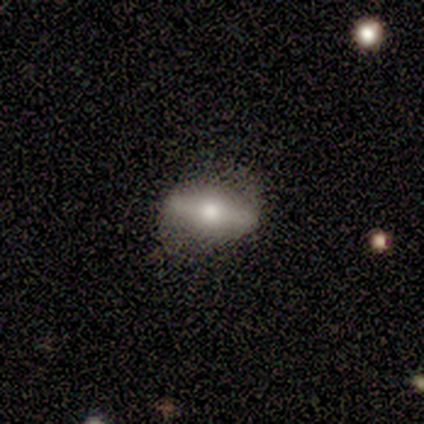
Smooth or featured? 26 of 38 (68%) said featured or disk. Edge-on disk? 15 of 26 (58%) said yes. Edge-on bulge? 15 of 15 (100%) said rounded. Merging? 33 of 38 (87%) said none.